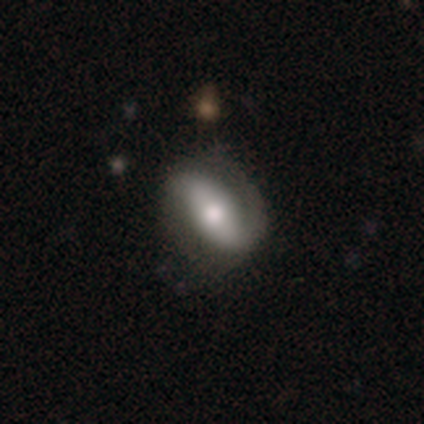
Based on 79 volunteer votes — Smooth or featured: featured or disk — 68% (smooth — 30%)
Edge-on disk: no — 91% (yes — 9%)
Bar: strong — 49% (no — 31%)
Spiral arms: yes — 84% (no — 16%)
Spiral winding: loose — 41% (tight — 32%)
Spiral arm count: 2 — 73% (1 — 22%)
Bulge size: moderate — 71% (large — 20%)
Merging: none — 32% (minor disturbance — 9%)